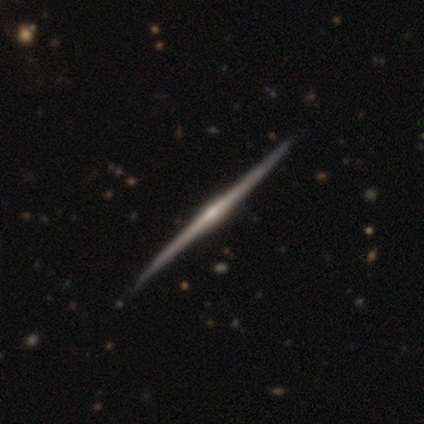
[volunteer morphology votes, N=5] This appears to be a featured or disk galaxy (100%) viewed edge-on (100%) with a rounded central bulge (60%). Merging: none (80%).